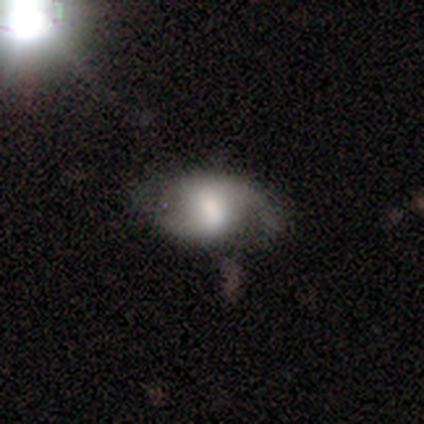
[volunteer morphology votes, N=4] featured or disk 75%, smooth 25%, star or artifact 0%. Down the decision tree: edge-on disk — no (100%); bar — weak (67%); spiral arms — yes (100%); spiral arm count — 2 (67%); spiral winding — loose (100%); bulge size — moderate (100%); merging — none (75%).